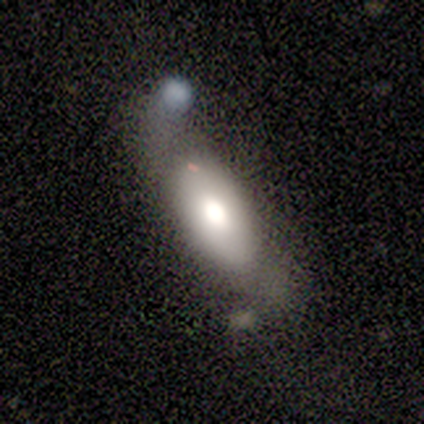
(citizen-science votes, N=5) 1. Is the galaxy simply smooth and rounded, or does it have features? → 40% smooth (tied), 40% featured or disk (tied), 20% star or artifact.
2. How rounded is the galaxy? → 100% in between, 0% round, 0% cigar-shaped.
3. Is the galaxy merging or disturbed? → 50% none (tied), 50% minor disturbance (tied), 0% major disturbance, 0% merger.